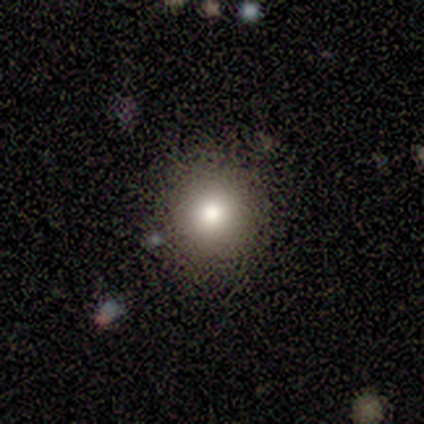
This appears to be a smooth galaxy with no disk features (69%) that is round (96%). Merging: none (91%).